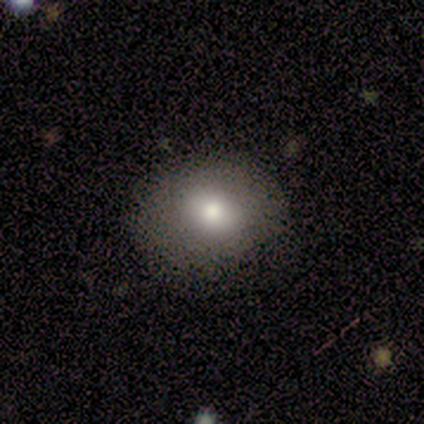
smooth-or-featured: smooth: 83% | featured or disk: 17% | star or artifact: 0%
  how-rounded: round: 80% | in between: 20% | cigar-shaped: 0%
  merging: none: 67% | minor disturbance: 17% | merger: 17% | major disturbance: 0%